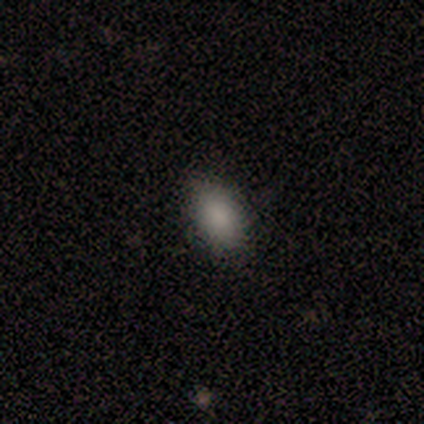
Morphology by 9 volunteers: smooth 89%, star or artifact 11%, featured or disk 0%. Down the decision tree: how rounded — in between (100%); merging — none (100%).